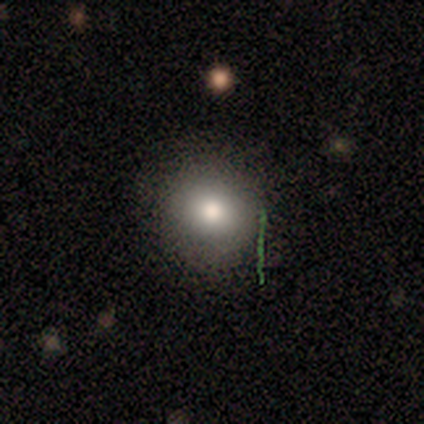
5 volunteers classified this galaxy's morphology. Q: Smooth or featured?
A: smooth (60%); runner-up: featured or disk (40%)
Q: How rounded?
A: round (100%)
Q: Merging?
A: none (80%); runner-up: minor disturbance (20%)